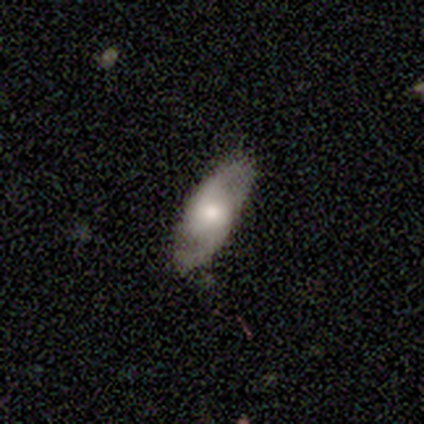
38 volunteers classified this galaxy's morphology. featured or disk 63%, smooth 34%, star or artifact 3%. Down the decision tree: edge-on disk — no (92%); bar — no (64%); spiral arms — yes (82%); spiral arm count — 2 (94%); spiral winding — medium (50%); bulge size — moderate (59%); merging — none (86%).